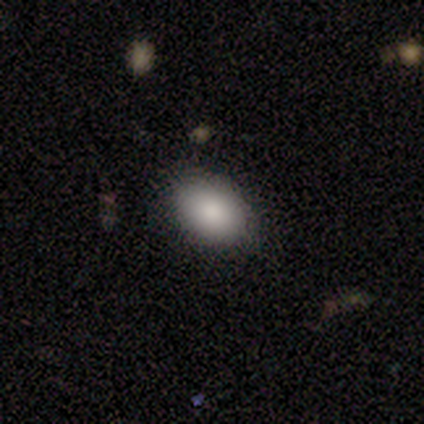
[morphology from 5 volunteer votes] Q: Smooth or featured?
A: smooth (100%)
Q: How rounded?
A: in between (100%)
Q: Merging?
A: none (100%)